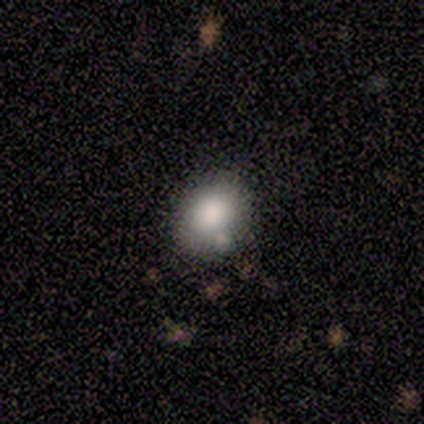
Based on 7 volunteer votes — Smooth or featured? 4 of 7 (57%) said smooth. How rounded? 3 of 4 (75%) said round. Merging? 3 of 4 (75%) said none.